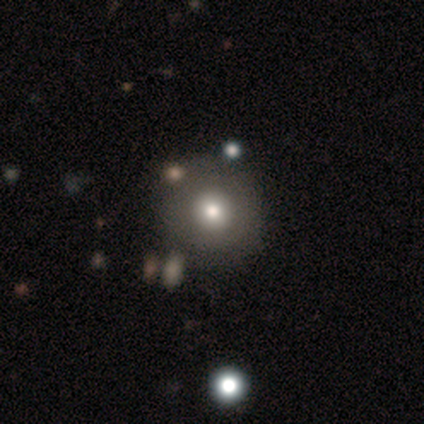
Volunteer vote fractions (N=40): smooth-or-featured: smooth: 72% | featured or disk: 20% | star or artifact: 8%
  how-rounded: round: 100% | in between: 0% | cigar-shaped: 0%
  merging: none: 65% | minor disturbance: 5% | merger: 5% | major disturbance: 3%